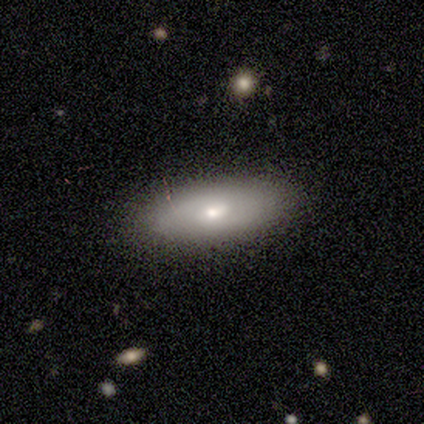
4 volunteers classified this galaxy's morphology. This appears to be a smooth galaxy with no disk features (100%) that is cigar-shaped (75%). Merging: none (100%).